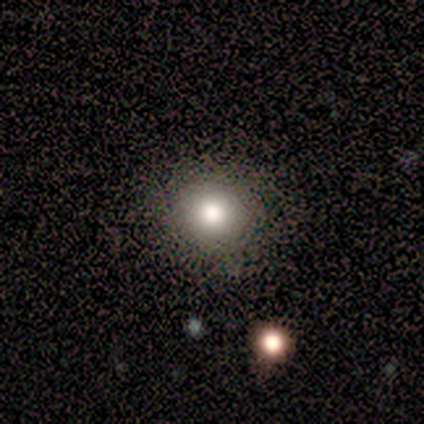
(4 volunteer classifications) A smooth galaxy with no disk features (75%) that is round (100%). Merging: none (100%).